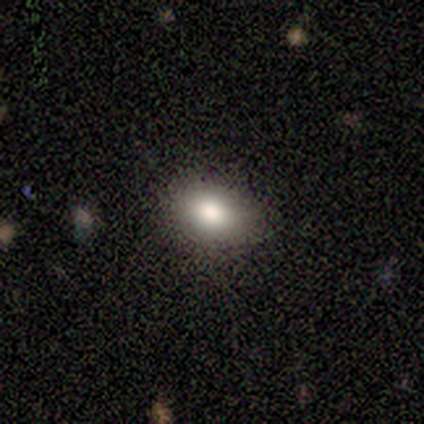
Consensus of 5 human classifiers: This is marginally a smooth galaxy (40%, tied with star or artifact). How rounded: possibly round (50%, tied with in between). Merging: clearly none (100%).